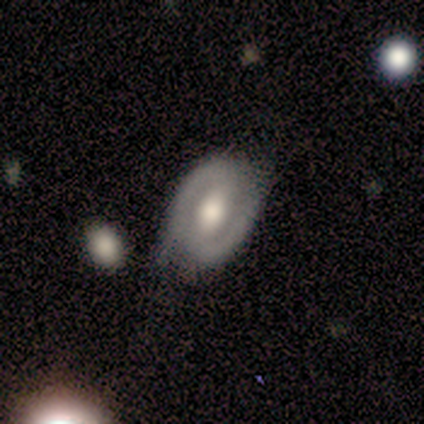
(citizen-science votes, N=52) Q: Smooth or featured?
A: featured or disk (71%); runner-up: smooth (27%)
Q: Edge-on disk?
A: no (100%)
Q: Bar?
A: weak (41%); runner-up: strong (38%)
Q: Spiral arms?
A: yes (68%); runner-up: no (32%)
Q: Spiral winding?
A: tight (56%); runner-up: medium (36%)
Q: Spiral arm count?
A: 2 (88%); runner-up: can't tell (8%)
Q: Bulge size?
A: moderate (54%); runner-up: large (41%)
Q: Merging?
A: none (55%); runner-up: minor disturbance (31%)